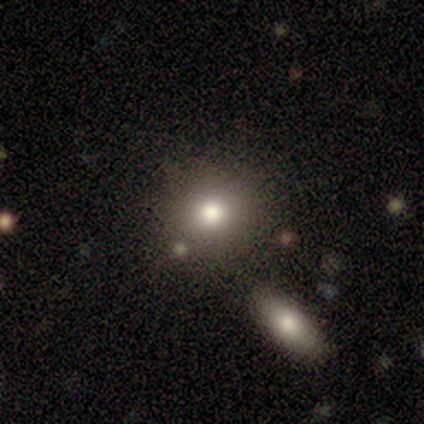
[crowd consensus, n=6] Smooth or featured: smooth — 100%
How rounded: round — 100%
Merging: none — 100%